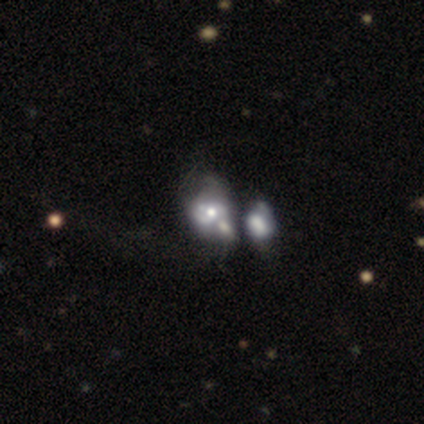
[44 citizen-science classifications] Smooth or featured? 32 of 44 (73%) said featured or disk. Edge-on disk? 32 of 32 (100%) said no. Bar? 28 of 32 (88%) said no. Spiral arms? 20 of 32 (62%) said no. Bulge size? 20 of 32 (62%) said moderate. Merging? 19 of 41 (46%) said merger.